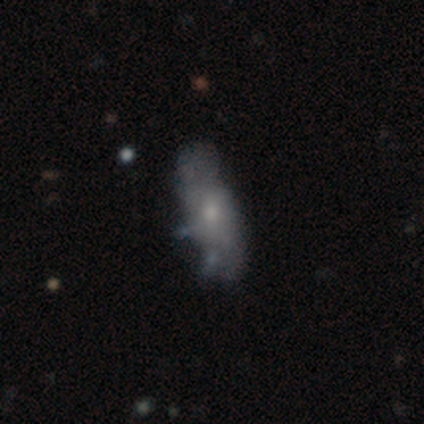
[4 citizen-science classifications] This appears to be a featured or disk galaxy (100%) with no bar (75%), no spiral arms (75%) and a moderate central bulge (100%). Merging: minor disturbance (50%, tied with major disturbance).